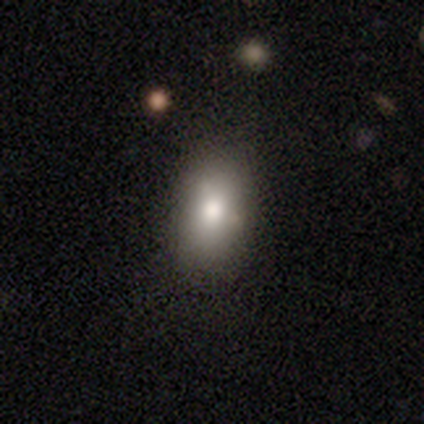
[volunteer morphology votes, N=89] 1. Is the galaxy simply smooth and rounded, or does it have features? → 76% smooth, 12% star or artifact, 11% featured or disk.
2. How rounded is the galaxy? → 84% in between, 13% round, 3% cigar-shaped.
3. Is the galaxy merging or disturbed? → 82% none, 14% minor disturbance, 3% merger, 1% major disturbance.